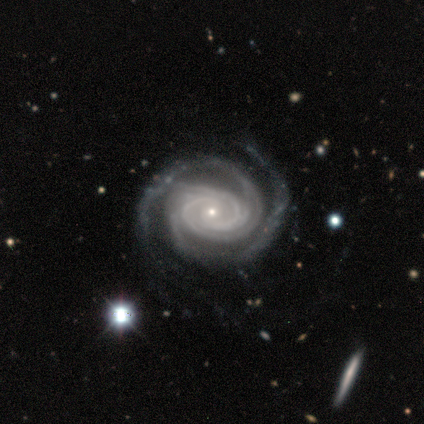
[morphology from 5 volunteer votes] This is clearly a featured or disk galaxy (100%). It is clearly not viewed edge-on (100%). Bar: likely no (60%). Spiral arm pattern: clearly yes (100%). Spiral arm count: likely 2 (60%). Spiral winding: clearly tight (80%). Central bulge: clearly small (100%). Merging: clearly none (80%).